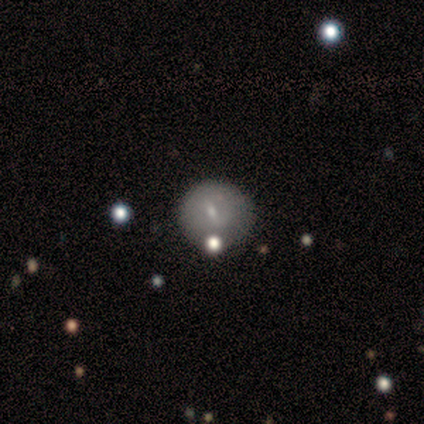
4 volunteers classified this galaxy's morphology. Q: Smooth or featured?
A: featured or disk (75%); runner-up: star or artifact (25%)
Q: Edge-on disk?
A: no (100%)
Q: Bar?
A: strong (33%); tied with: weak (33%); no (33%)
Q: Spiral arms?
A: yes (67%); runner-up: no (33%)
Q: Spiral winding?
A: tight (50%); tied with: medium (50%)
Q: Spiral arm count?
A: 2 (50%); tied with: can't tell (50%)
Q: Bulge size?
A: small (67%); runner-up: moderate (33%)
Q: Merging?
A: none (100%)